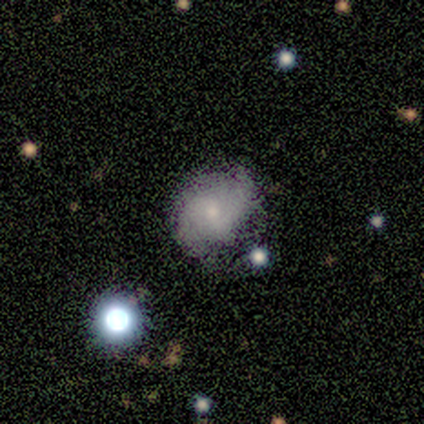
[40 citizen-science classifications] This is likely a featured or disk galaxy (65%). It is clearly not viewed edge-on (100%). Bar: possibly no (54%). Spiral arm pattern: clearly yes (85%). Spiral arm count: likely 2 (77%). Spiral winding: possibly medium (45%). Central bulge: possibly moderate (46%, tied with small). Merging: likely none (79%).